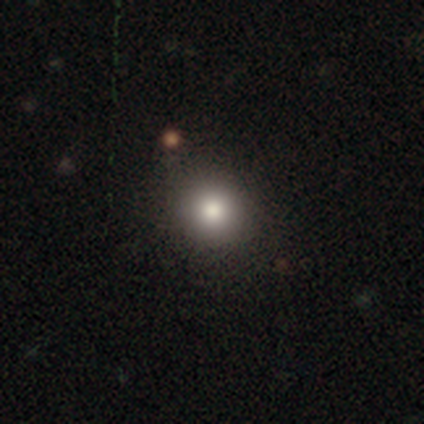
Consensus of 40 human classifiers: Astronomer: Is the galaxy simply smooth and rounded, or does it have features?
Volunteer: smooth — 85%.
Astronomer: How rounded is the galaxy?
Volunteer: round — 94%.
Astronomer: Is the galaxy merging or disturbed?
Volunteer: none — 78%.